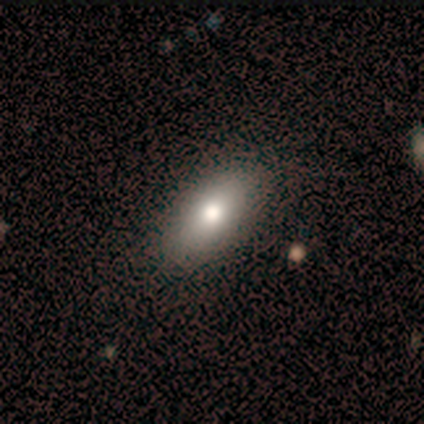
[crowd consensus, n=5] Smooth or featured? 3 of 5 (60%) said smooth. How rounded? 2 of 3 (67%) said in between. Merging? 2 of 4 (50%, tied with minor disturbance) said none.